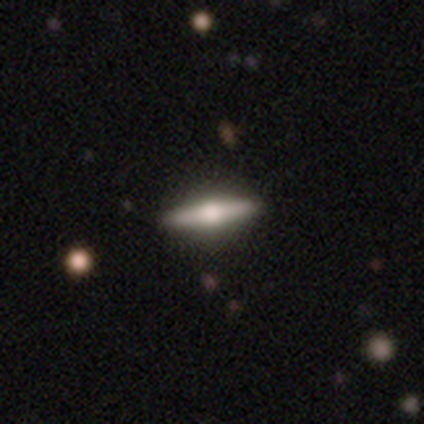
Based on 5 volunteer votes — Morphology: type=featured or disk (80%); edge-on=yes (100%); edge-on bulge=rounded (100%); merging=none (100%).